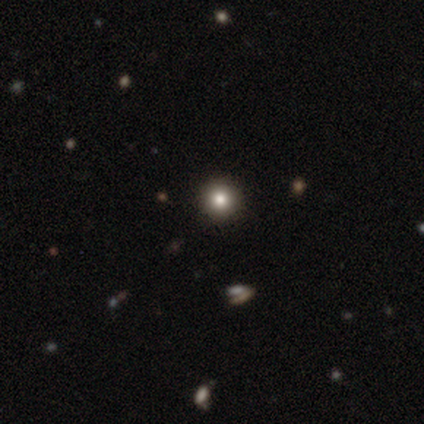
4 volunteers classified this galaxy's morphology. Consensus on every question: smooth or featured — smooth (100%); how rounded — round (100%); merging — none (100%).